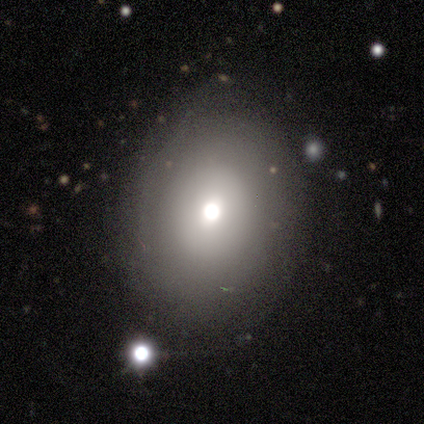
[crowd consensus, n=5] Overall: featured or disk (60%; smooth 40%). Edge-on disk: no (100%). Bar: no (67%; weak 33%). Spiral arms: yes (100%). Spiral arm count: can't tell (67%; more than 4 33%). Spiral winding: tight (67%; medium 33%). Bulge size: moderate (100%). Merging: none (100%).